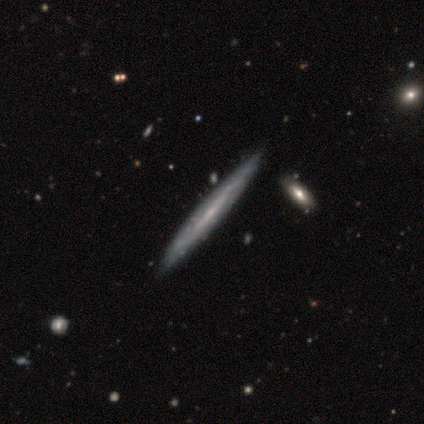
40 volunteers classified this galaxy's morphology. Q: Smooth or featured?
A: featured or disk (80%); runner-up: smooth (20%)
Q: Edge-on disk?
A: yes (91%); runner-up: no (9%)
Q: Edge-on bulge?
A: none (69%); runner-up: rounded (21%)
Q: Merging?
A: none (75%); runner-up: merger (5%)